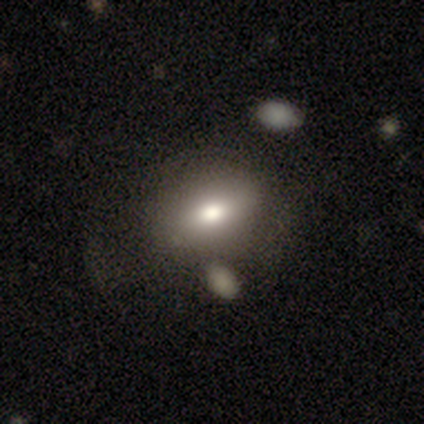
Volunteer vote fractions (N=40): smooth_or_featured: smooth (p=0.78) [alt: featured or disk p=0.23]
how_rounded: in between (p=0.77) [alt: round p=0.19]
merging: none (p=0.33) [alt: minor disturbance p=0.15]